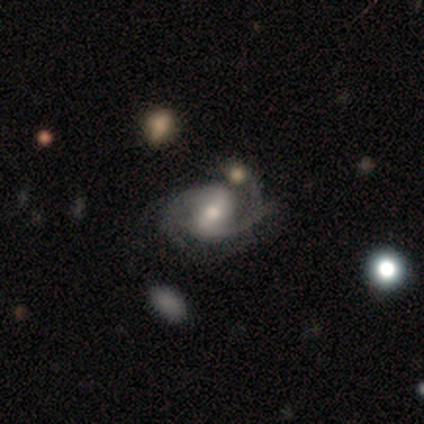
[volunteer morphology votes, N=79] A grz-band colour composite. It shows a featured or disk galaxy (90%) with a strong bar (48%), 2 (75%) medium (51%) spiral arms (97%) and a moderate central bulge (69%). Merging: none (27%).